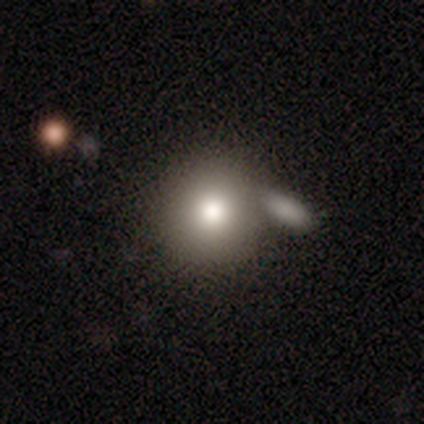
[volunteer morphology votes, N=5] smooth_or_featured: smooth (p=1.00)
how_rounded: round (p=1.00)
merging: none (p=0.60) [alt: minor disturbance p=0.20]